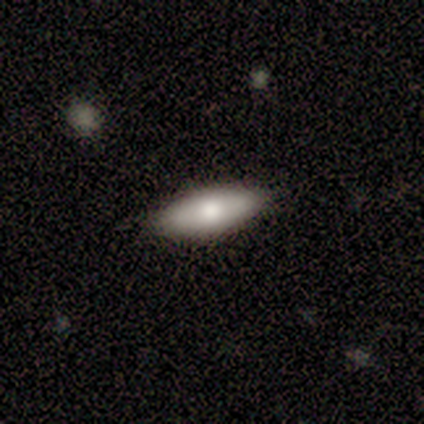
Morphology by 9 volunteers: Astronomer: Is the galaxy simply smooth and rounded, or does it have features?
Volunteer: smooth — 89%.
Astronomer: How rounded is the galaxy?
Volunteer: in between — 50%, tied with cigar-shaped at 50%.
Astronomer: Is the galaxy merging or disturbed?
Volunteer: none — 100%.